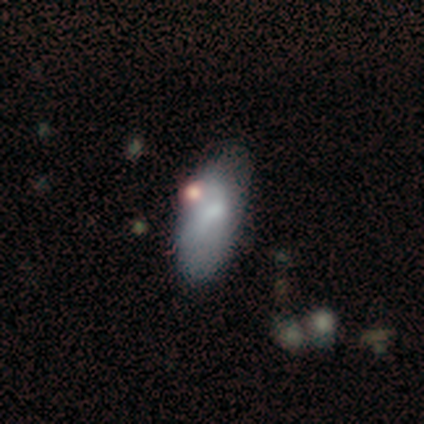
Smooth or featured? smooth (80%)
How rounded? in between (100%)
Merging? major disturbance (40%, tied with merger)